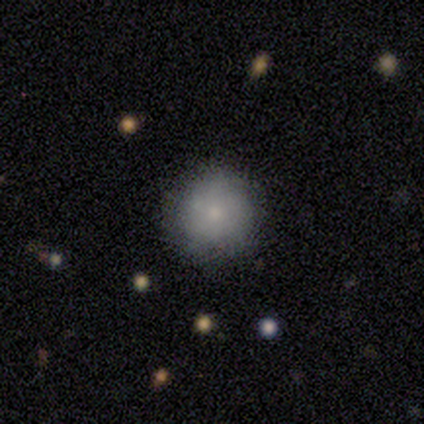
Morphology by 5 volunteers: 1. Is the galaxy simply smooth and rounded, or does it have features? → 80% smooth, 20% featured or disk, 0% star or artifact.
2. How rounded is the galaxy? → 100% round, 0% in between, 0% cigar-shaped.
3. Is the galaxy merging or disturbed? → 80% none, 20% minor disturbance, 0% major disturbance, 0% merger.